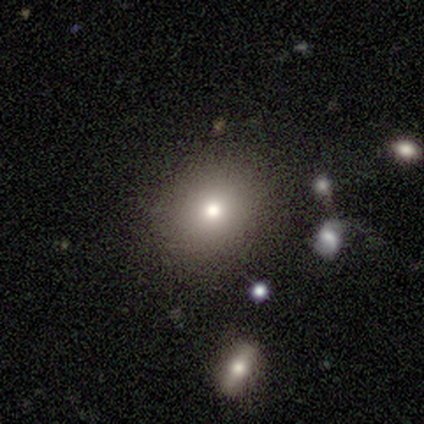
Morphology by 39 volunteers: type=smooth (79%); roundness=round (68%); merging=none (88%).